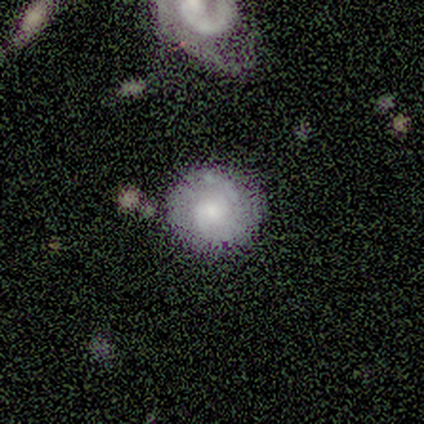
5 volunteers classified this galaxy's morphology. type=featured or disk (80%); edge-on=no (100%); bar=no (75%); spiral arms=yes (75%); winding=tight (67%); arm count=2 (33%, tied with 3 and can't tell); bulge=large (50%); merging=none (100%).